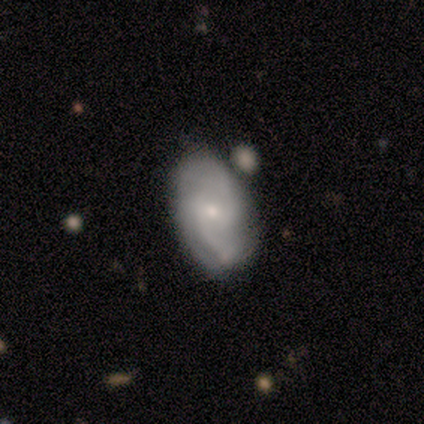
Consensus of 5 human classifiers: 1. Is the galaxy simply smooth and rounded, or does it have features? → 100% featured or disk, 0% smooth, 0% star or artifact.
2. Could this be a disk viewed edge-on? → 100% no, 0% yes.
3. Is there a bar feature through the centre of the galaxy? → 80% weak, 20% no, 0% strong.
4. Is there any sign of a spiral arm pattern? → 100% yes, 0% no.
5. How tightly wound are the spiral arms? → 40% medium (tied), 40% loose (tied), 20% tight.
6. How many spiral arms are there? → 100% 2, 0% 1, 0% 3, 0% 4, 0% more than 4, 0% can't tell.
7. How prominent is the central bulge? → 60% small, 40% moderate, 0% dominant, 0% large, 0% none.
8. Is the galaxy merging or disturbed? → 60% none, 20% minor disturbance, 20% major disturbance, 0% merger.